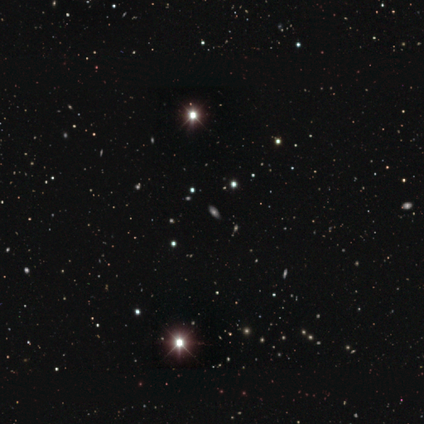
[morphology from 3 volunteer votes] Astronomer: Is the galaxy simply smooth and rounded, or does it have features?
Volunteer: smooth — 67%.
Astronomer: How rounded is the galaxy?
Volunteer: in between — 100%.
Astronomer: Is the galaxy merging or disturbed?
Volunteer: minor disturbance — 100%.